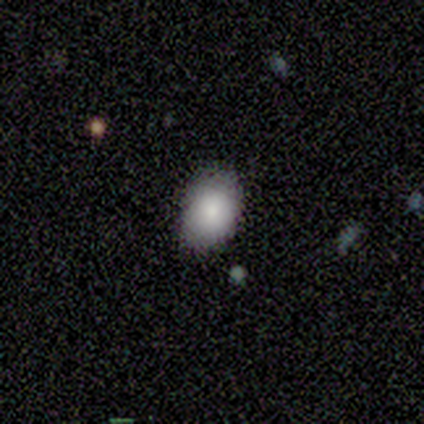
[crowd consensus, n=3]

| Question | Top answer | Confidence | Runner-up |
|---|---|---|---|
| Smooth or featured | smooth | 100% | — |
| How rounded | in between | 67% | round (33%) |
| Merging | none | 100% | — |